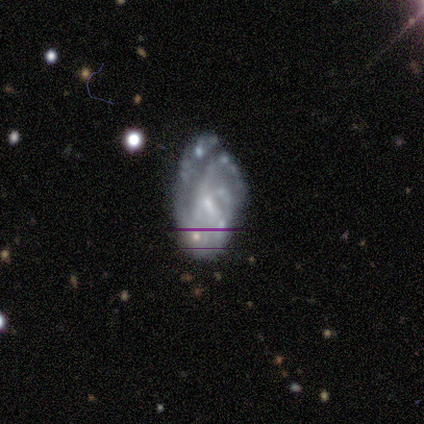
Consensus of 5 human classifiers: Smooth or featured?
  - featured or disk: 100% *
  - smooth: 0%
  - star or artifact: 0%
Edge-on disk?
  - no: 100% *
  - yes: 0%
Bar?
  - weak: 80% *
  - no: 20%
  - strong: 0%
Spiral arms?
  - yes: 100% *
  - no: 0%
Spiral winding?
  - tight: 60% *
  - medium: 20%
  - loose: 20%
Spiral arm count?
  - 1: 40% * (tied)
  - 4: 40% * (tied)
  - 2: 20%
  - 3: 0%
  - more than 4: 0%
  - can't tell: 0%
Bulge size?
  - small: 60% *
  - moderate: 20%
  - none: 20%
  - dominant: 0%
  - large: 0%
Merging?
  - minor disturbance: 40% * (tied)
  - major disturbance: 40% * (tied)
  - none: 20%
  - merger: 0%